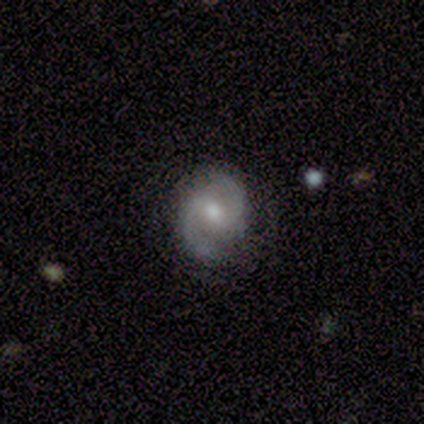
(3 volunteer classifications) smooth_or_featured: featured or disk (p=1.00)
disk_edge_on: no (p=1.00)
bar: weak (p=0.67) [alt: no p=0.33]
has_spiral_arms: yes (p=1.00)
spiral_winding: tight (p=0.33) [tied with: medium p=0.33, loose p=0.33]
spiral_arm_count: 2 (p=1.00)
bulge_size: small (p=1.00)
merging: none (p=1.00)